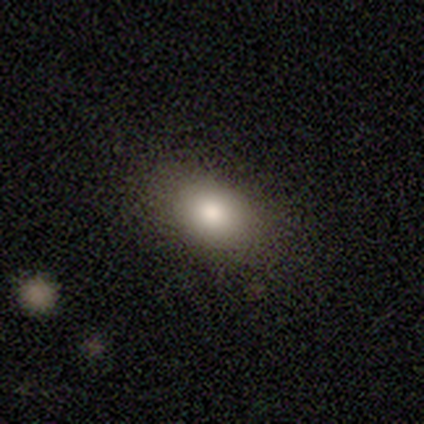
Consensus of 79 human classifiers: This is clearly a smooth galaxy (89%). How rounded: clearly in between (86%). Merging: marginally none (42%).